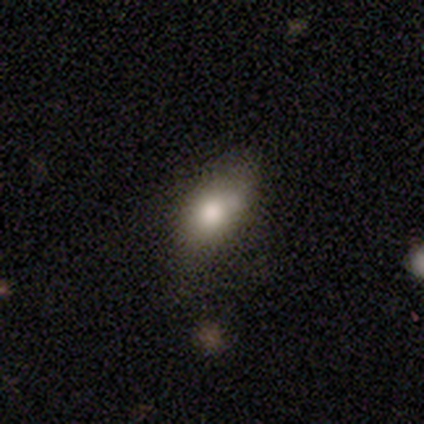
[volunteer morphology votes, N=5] Smooth or featured?
  - smooth: 100% *
  - featured or disk: 0%
  - star or artifact: 0%
How rounded?
  - in between: 100% *
  - round: 0%
  - cigar-shaped: 0%
Merging?
  - none: 60% *
  - merger: 40%
  - minor disturbance: 0%
  - major disturbance: 0%